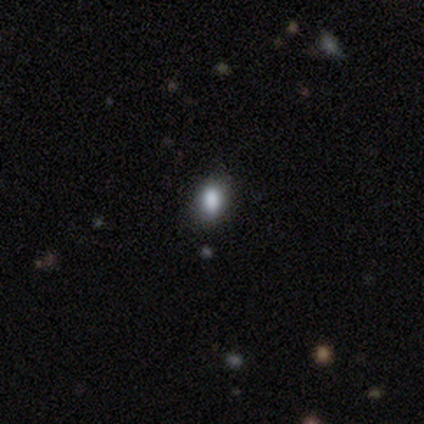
Volunteers were most divided on "smooth or featured": smooth: 60%, star or artifact: 40%, featured or disk: 0%. More confident: how rounded — round (67%); merging — none (67%).